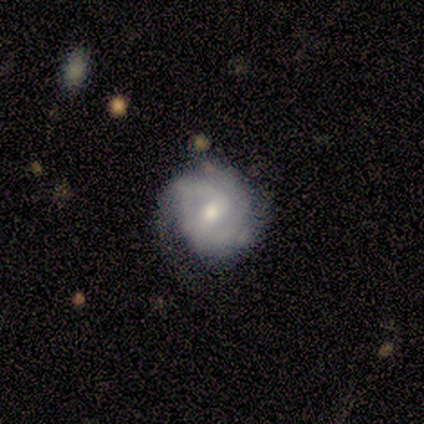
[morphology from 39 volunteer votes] Smooth or featured? 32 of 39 (82%) said featured or disk. Edge-on disk? 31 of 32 (97%) said no. Bar? 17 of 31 (55%) said weak. Spiral arms? 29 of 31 (94%) said yes. Spiral winding? 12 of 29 (41%, tied with medium) said tight. Spiral arm count? 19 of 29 (66%) said 2. Bulge size? 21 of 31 (68%) said moderate. Merging? 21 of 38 (55%) said none.